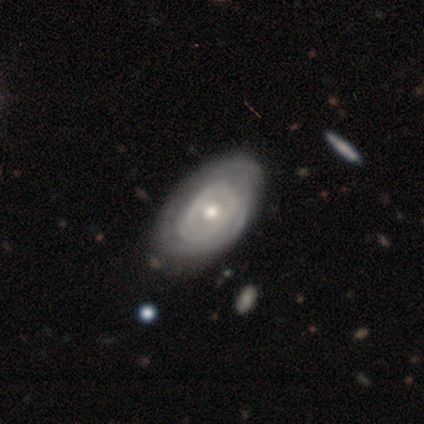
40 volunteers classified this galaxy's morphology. type=featured or disk (82%); edge-on=no (100%); bar=no (79%); spiral arms=no (52%); bulge=moderate (67%); merging=none (45%).